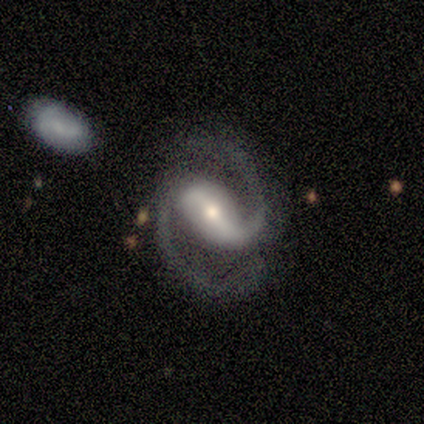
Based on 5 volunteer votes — smooth-or-featured: featured or disk: 100% | smooth: 0% | star or artifact: 0%
  disk-edge-on: no: 100% | yes: 0%
    bar: strong: 60% | weak: 40% | no: 0%
    has-spiral-arms: yes: 100% | no: 0%
      spiral-winding: medium: 60% | tight: 40% | loose: 0%
      spiral-arm-count: 2: 100% | 1: 0% | 3: 0% | 4: 0% | more than 4: 0% | can't tell: 0%
    bulge-size: moderate: 80% | large: 20% | dominant: 0% | small: 0% | none: 0%
  merging: minor disturbance: 80% | none: 20% | major disturbance: 0% | merger: 0%